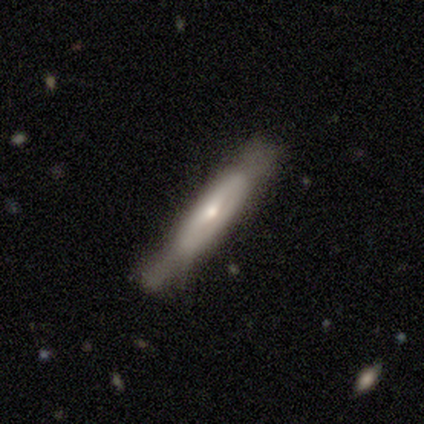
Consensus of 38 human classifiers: Smooth or featured? 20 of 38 (53%) said featured or disk. Edge-on disk? 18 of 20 (90%) said yes. Edge-on bulge? 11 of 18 (61%) said boxy. Merging? 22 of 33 (67%) said none.